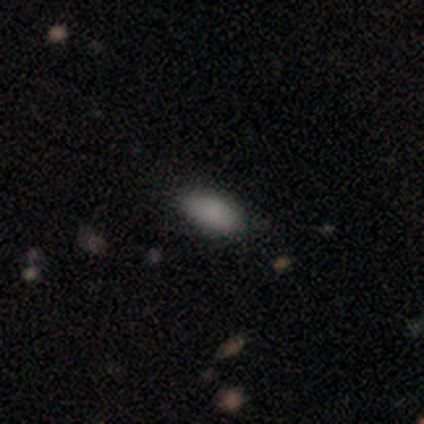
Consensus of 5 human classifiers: Smooth or featured?
  - smooth: 80% *
  - featured or disk: 20%
  - star or artifact: 0%
How rounded?
  - in between: 100% *
  - round: 0%
  - cigar-shaped: 0%
Merging?
  - none: 80% *
  - major disturbance: 20%
  - minor disturbance: 0%
  - merger: 0%